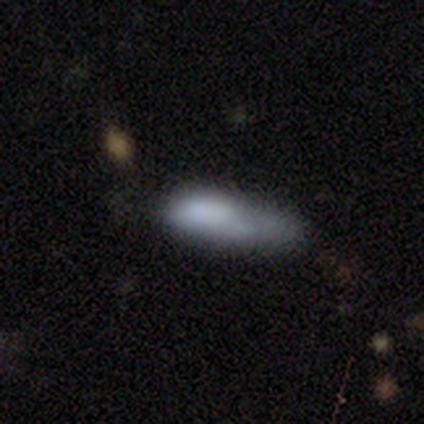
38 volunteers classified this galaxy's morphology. Smooth or featured? smooth (66%)
How rounded? cigar-shaped (88%)
Merging? none (42%)